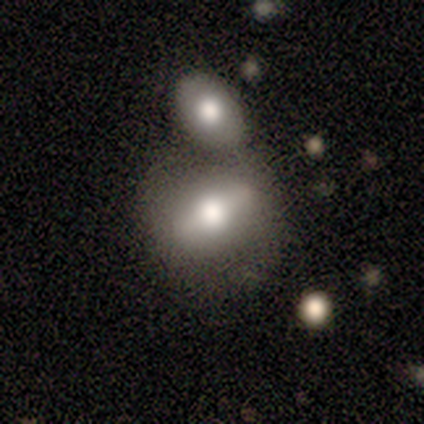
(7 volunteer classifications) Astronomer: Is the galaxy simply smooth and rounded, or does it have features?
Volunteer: smooth — 57% (runner-up: featured or disk, 43%).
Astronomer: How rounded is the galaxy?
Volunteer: in between — 100%.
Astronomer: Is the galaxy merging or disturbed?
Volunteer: none — 43%, tied with merger at 43%.